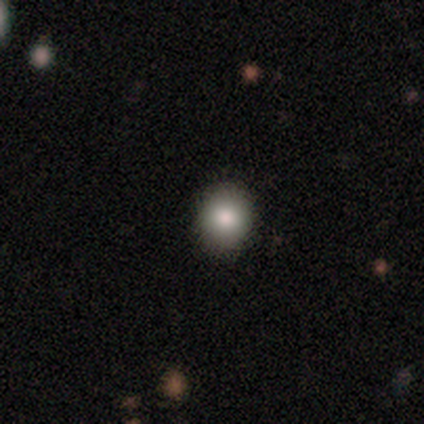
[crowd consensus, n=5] A smooth galaxy with no disk features (60%) that is round (100%). Merging: none (75%).